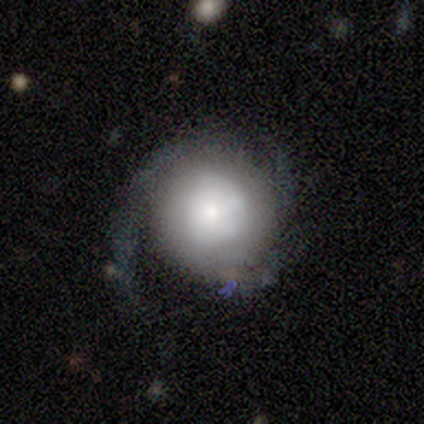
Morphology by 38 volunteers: Smooth or featured?
  - featured or disk: 68% *
  - smooth: 26%
  - star or artifact: 5%
Edge-on disk?
  - no: 92% *
  - yes: 8%
Bar?
  - no: 92% *
  - strong: 4%
  - weak: 4%
Spiral arms?
  - yes: 88% *
  - no: 12%
Spiral winding?
  - tight: 52% *
  - loose: 29%
  - medium: 19%
Spiral arm count?
  - 3: 43% *
  - 1: 19%
  - 2: 19%
  - can't tell: 19%
  - 4: 0%
  - more than 4: 0%
Bulge size?
  - moderate: 29% *
  - large: 25%
  - dominant: 21%
  - small: 21%
  - none: 4%
Merging?
  - none: 64% *
  - minor disturbance: 19%
  - major disturbance: 17%
  - merger: 0%